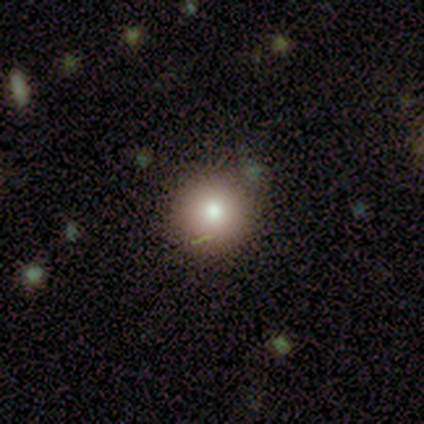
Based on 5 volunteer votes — A smooth galaxy with no disk features (80%) that is round (100%).

Vote fractions:
- Smooth or featured? smooth: 80% / featured or disk: 20% / star or artifact: 0%
- How rounded? round: 100% / in between: 0% / cigar-shaped: 0%
- Merging? none: 80% / minor disturbance: 20% / major disturbance: 0% / merger: 0%